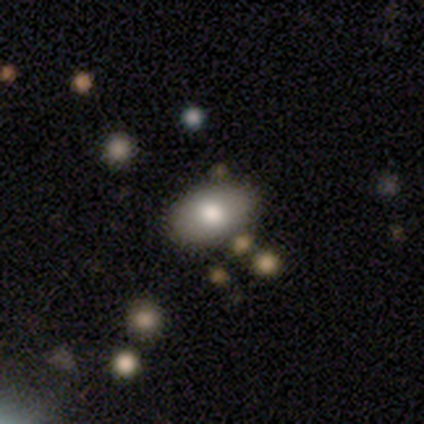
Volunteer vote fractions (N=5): Q: Smooth or featured?
A: smooth (100%)
Q: How rounded?
A: in between (100%)
Q: Merging?
A: none (80%); runner-up: merger (20%)